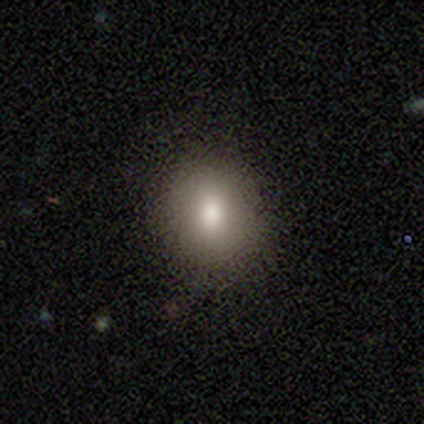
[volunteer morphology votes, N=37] This appears to be a smooth galaxy with no disk features (81%) that is round (83%). Merging: none (91%).